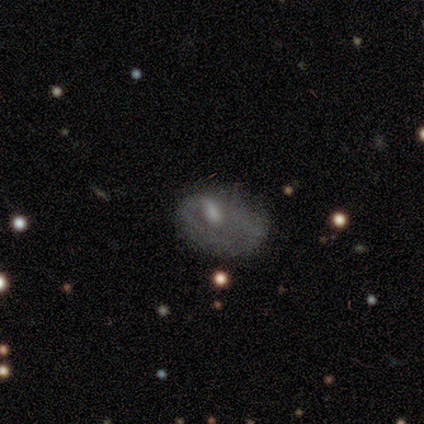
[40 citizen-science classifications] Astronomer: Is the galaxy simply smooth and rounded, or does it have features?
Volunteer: featured or disk — 52% (runner-up: smooth, 38%).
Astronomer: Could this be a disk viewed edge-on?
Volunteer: no — 100%.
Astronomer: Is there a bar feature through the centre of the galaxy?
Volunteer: no — 52% (runner-up: weak, 48%).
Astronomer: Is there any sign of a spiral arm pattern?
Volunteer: no — 81%.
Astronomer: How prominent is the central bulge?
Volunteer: moderate — 38% (runner-up: small, 33%).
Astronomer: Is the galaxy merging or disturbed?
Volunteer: major disturbance — 33% (runner-up: minor disturbance, 25%).